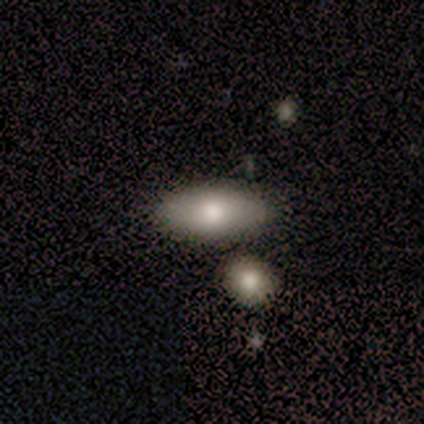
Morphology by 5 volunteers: Q: Smooth or featured?
A: smooth (100%)
Q: How rounded?
A: in between (60%); runner-up: cigar-shaped (40%)
Q: Merging?
A: none (100%)